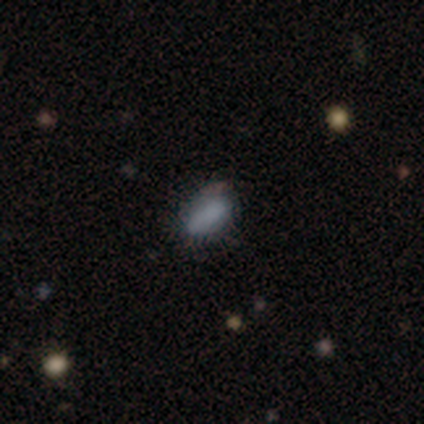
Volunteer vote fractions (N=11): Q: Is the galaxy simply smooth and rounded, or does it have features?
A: smooth — 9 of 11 (82%).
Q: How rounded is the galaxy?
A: in between — 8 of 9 (89%).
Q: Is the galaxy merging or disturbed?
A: none — 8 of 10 (80%).